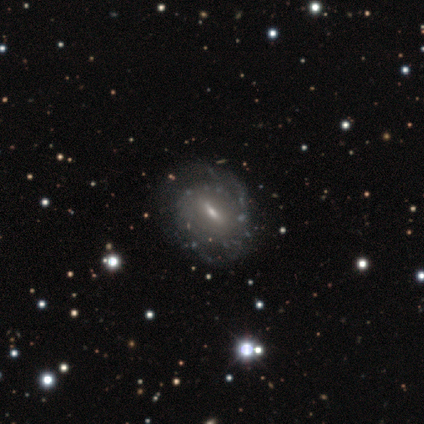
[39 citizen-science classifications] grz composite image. It shows a featured or disk galaxy (92%) with a strong bar (50%), medium (46%) spiral arms (72%) and a small central bulge (47%). Merging: none (49%).